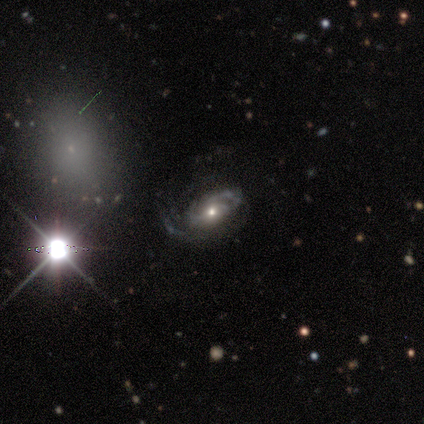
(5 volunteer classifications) A featured or disk galaxy (80%) with no bar (100%), tight (50%) spiral arms (100%) and a moderate central bulge (50%). Merging: major disturbance (60%).